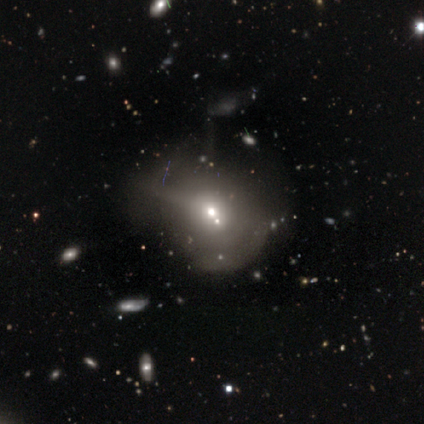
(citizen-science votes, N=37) This appears to be a smooth galaxy with no disk features (59%) that is round (68%). Merging: major disturbance (43%).